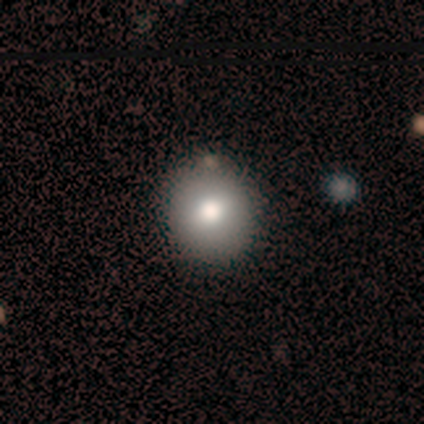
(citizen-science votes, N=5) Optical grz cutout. It shows a smooth galaxy with no disk features (80%) that is round (75%). Merging: none (100%).